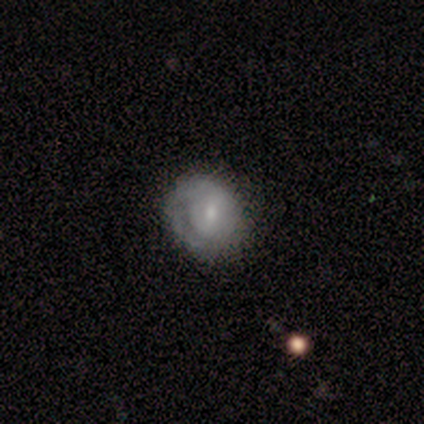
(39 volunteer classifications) Overall: featured or disk (51%; smooth 46%). Edge-on disk: no (100%). Bar: no (50%; weak 45%). Spiral arms: yes (65%; no 35%). Spiral arm count: 1 (46%; can't tell 38%). Spiral winding: tight (77%). Bulge size: small (65%; moderate 30%). Merging: none (71%).